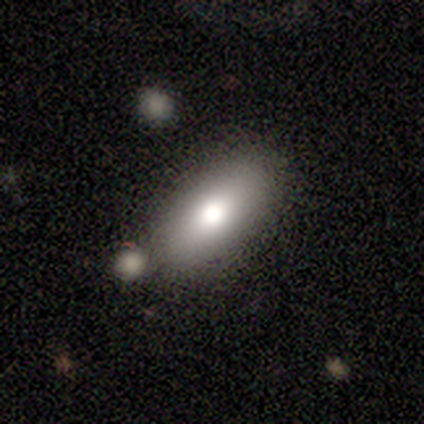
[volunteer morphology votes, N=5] Overall: smooth (80%). How rounded: in between (75%). Merging: none (100%).